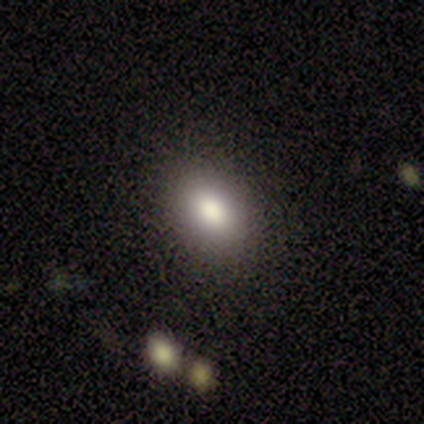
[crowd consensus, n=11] Smooth or featured? 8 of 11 (73%) said smooth. How rounded? 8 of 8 (100%) said in between. Merging? 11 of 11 (100%) said none.